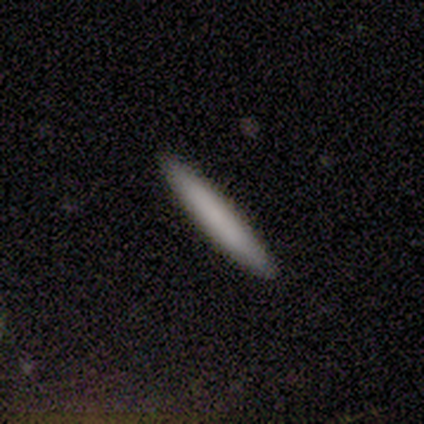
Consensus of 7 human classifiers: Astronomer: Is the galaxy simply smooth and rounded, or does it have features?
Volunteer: smooth — 86%.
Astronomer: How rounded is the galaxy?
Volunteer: cigar-shaped — 100%.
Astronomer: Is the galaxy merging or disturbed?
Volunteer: none — 100%.